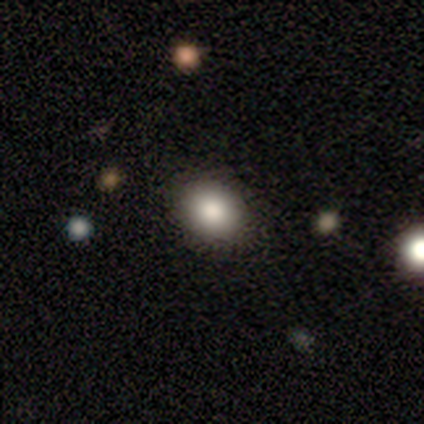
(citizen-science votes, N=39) A smooth galaxy with no disk features (72%) that is round (54%). Merging: none (84%).